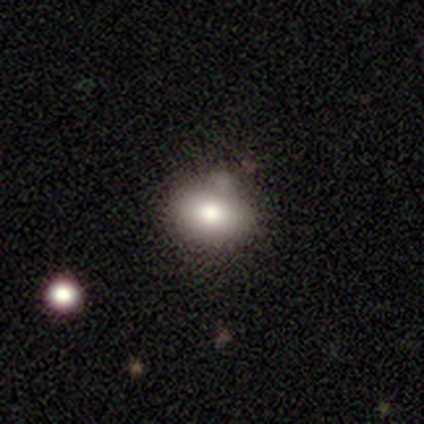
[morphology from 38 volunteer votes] type=smooth (79%); roundness=round (53%); merging=none (62%).